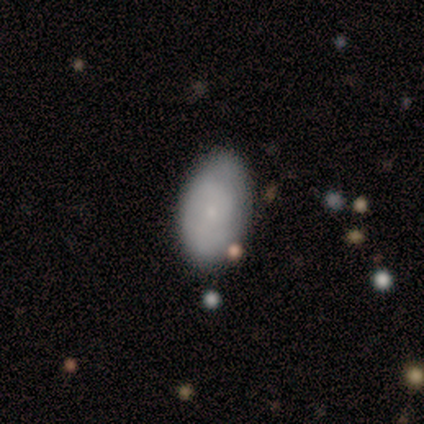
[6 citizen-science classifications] Smooth or featured? 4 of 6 (67%) said featured or disk. Edge-on disk? 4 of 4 (100%) said no. Bar? 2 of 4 (50%) said no. Spiral arms? 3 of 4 (75%) said yes. Spiral winding? 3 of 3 (100%) said tight. Spiral arm count? 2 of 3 (67%) said can't tell. Bulge size? 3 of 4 (75%) said small. Merging? 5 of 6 (83%) said none.